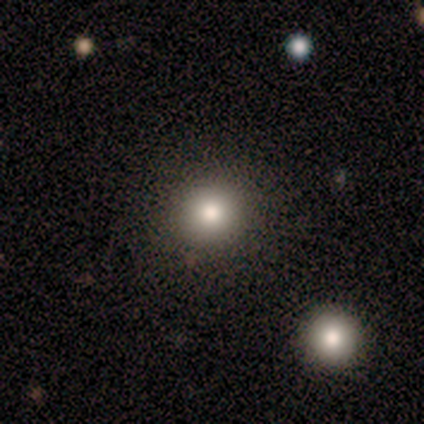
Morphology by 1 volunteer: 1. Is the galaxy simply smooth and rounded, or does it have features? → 100% smooth, 0% featured or disk, 0% star or artifact.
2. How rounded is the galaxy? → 100% round, 0% in between, 0% cigar-shaped.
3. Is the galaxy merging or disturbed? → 100% none, 0% minor disturbance, 0% major disturbance, 0% merger.